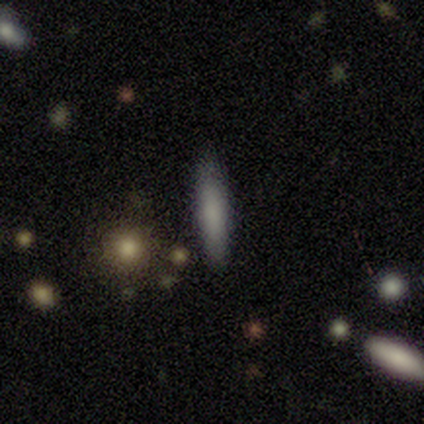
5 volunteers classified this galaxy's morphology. Overall: smooth (40%, tied with featured or disk). How rounded: cigar-shaped (100%). Merging: none (100%).